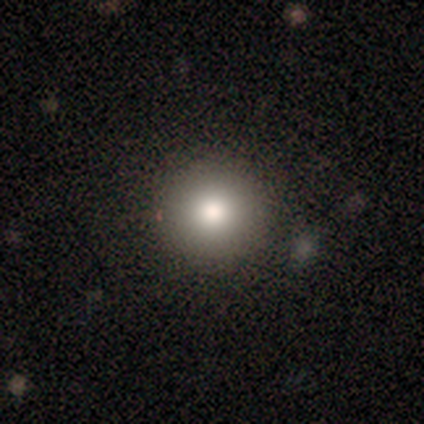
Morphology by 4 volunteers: Smooth or featured? 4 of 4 (100%) said smooth. How rounded? 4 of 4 (100%) said round. Merging? 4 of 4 (100%) said none.